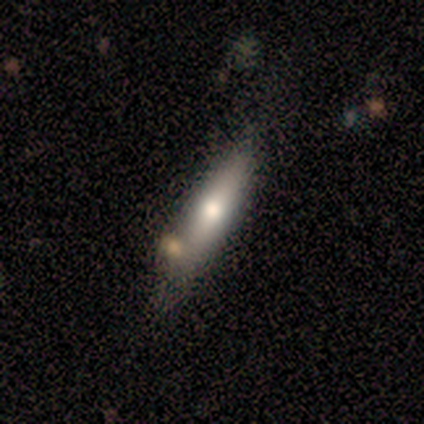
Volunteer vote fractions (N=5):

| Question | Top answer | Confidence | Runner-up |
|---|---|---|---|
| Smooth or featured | featured or disk | 80% | smooth (20%) |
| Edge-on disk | yes | 75% | no (25%) |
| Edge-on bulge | rounded | 100% | — |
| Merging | none | 40% | tied: minor disturbance (40%) |